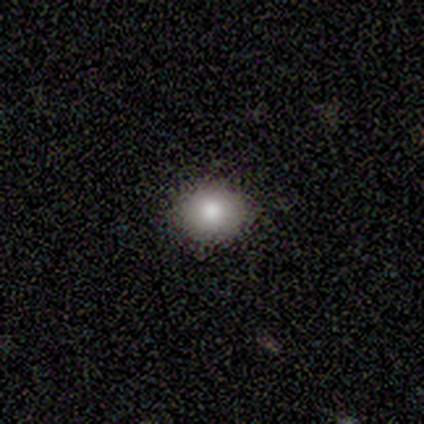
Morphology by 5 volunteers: A smooth galaxy with no disk features (100%) that is round (60%). Merging: none (100%).